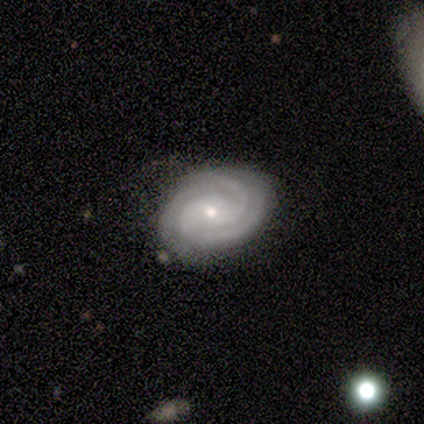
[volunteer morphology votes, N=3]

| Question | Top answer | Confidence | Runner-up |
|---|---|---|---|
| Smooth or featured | featured or disk | 100% | — |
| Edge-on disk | yes | 67% | no (33%) |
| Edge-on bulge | none | 50% | tied: rounded (50%) |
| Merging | none | 100% | — |